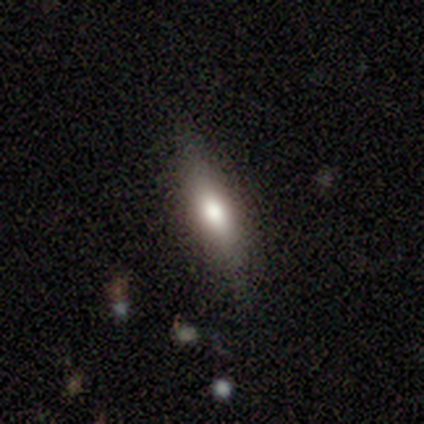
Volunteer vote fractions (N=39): Smooth or featured? 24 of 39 (62%) said smooth. How rounded? 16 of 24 (67%) said cigar-shaped. Merging? 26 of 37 (70%) said none.